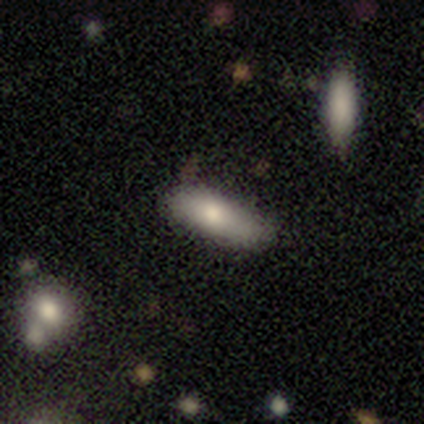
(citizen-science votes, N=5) This appears to be a smooth galaxy with no disk features (100%) that is cigar-shaped (80%). Merging: none (100%).